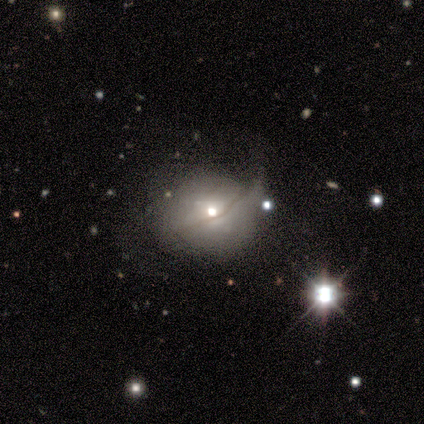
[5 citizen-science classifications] A featured or disk galaxy (80%) with no bar (100%), no spiral arms (75%) and a moderate central bulge (75%).

Vote fractions:
- Smooth or featured? featured or disk: 80% / smooth: 20% / star or artifact: 0%
- Edge-on disk? no: 100% / yes: 0%
- Bar? no: 100% / strong: 0% / weak: 0%
- Spiral arms? no: 75% / yes: 25%
- Bulge size? moderate: 75% / small: 25% / dominant: 0% / large: 0% / none: 0%
- Merging? none: 40% (tied) / minor disturbance: 40% (tied) / major disturbance: 20% / merger: 0%